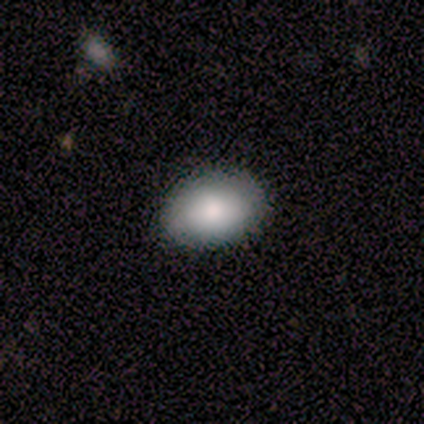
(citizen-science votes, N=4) Q: Smooth or featured?
A: smooth (75%); runner-up: star or artifact (25%)
Q: How rounded?
A: in between (100%)
Q: Merging?
A: none (100%)